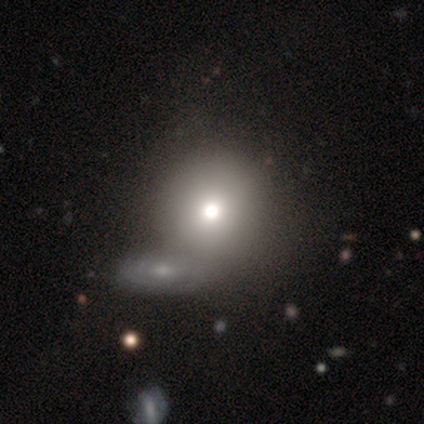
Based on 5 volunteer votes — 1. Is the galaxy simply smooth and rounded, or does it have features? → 80% smooth, 20% featured or disk, 0% star or artifact.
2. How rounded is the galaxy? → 75% round, 25% in between, 0% cigar-shaped.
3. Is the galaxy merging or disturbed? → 40% merger, 20% none, 20% minor disturbance, 20% major disturbance.